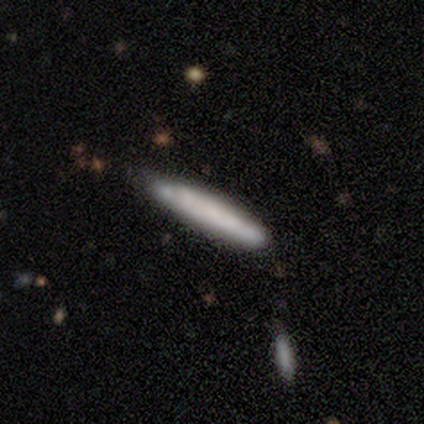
smooth-or-featured: smooth: 100% | featured or disk: 0% | star or artifact: 0%
  how-rounded: cigar-shaped: 80% | in between: 20% | round: 0%
  merging: none: 40% (tied) | minor disturbance: 40% (tied) | merger: 20% | major disturbance: 0%